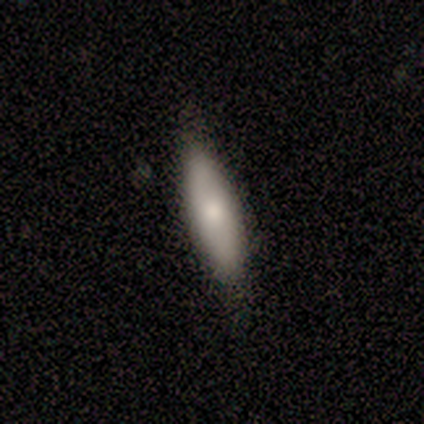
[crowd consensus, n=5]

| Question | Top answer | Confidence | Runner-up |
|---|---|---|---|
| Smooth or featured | smooth | 60% | featured or disk (40%) |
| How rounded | in between | 67% | cigar-shaped (33%) |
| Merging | none | 80% | minor disturbance (20%) |